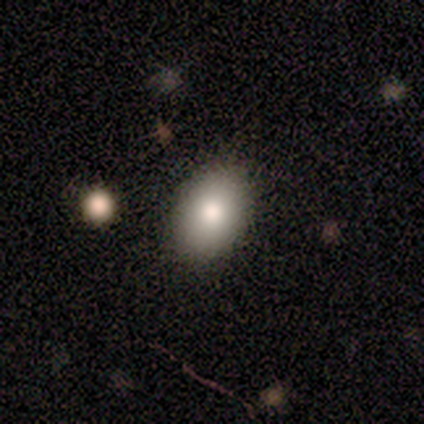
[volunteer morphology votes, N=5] Smooth or featured? 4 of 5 (80%) said smooth. How rounded? 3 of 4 (75%) said in between. Merging? 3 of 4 (75%) said none.